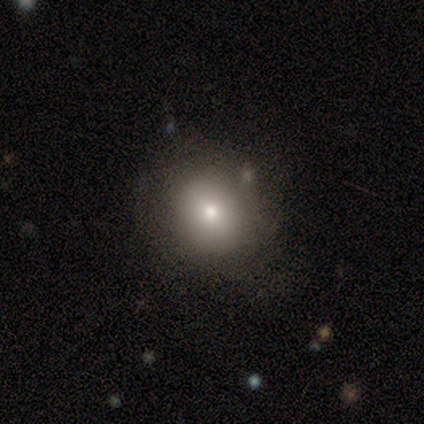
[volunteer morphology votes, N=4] A smooth galaxy with no disk features (100%) that is round (75%). Merging: none (100%).